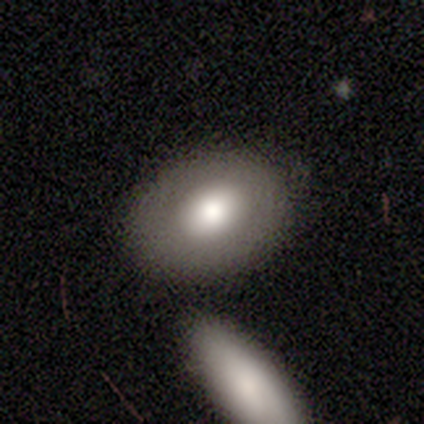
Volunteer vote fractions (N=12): This appears to be a smooth galaxy with no disk features (75%) that is in between round and cigar-shaped (89%). Merging: none (58%).